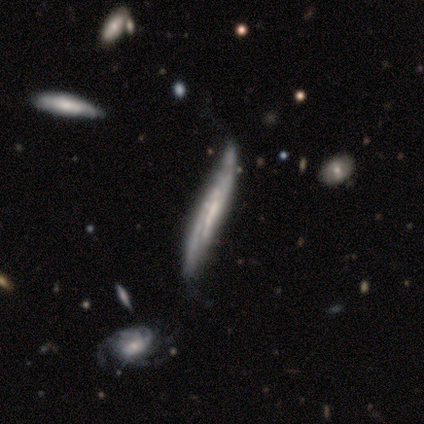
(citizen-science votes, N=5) smooth-or-featured: featured or disk: 100% | smooth: 0% | star or artifact: 0%
  disk-edge-on: yes: 60% | no: 40%
    edge-on-bulge: none: 67% | rounded: 33% | boxy: 0%
  merging: none: 60% | major disturbance: 20% | merger: 20% | minor disturbance: 0%